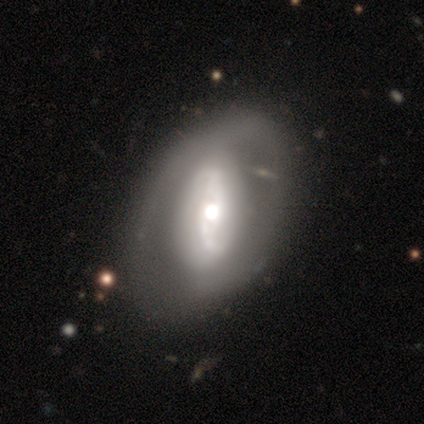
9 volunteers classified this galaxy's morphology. Smooth or featured?
  - featured or disk: 67% *
  - smooth: 33%
  - star or artifact: 0%
Edge-on disk?
  - no: 100% *
  - yes: 0%
Bar?
  - weak: 50% *
  - no: 33%
  - strong: 17%
Spiral arms?
  - yes: 83% *
  - no: 17%
Spiral winding?
  - loose: 60% *
  - tight: 20%
  - medium: 20%
Spiral arm count?
  - 2: 80% *
  - can't tell: 20%
  - 1: 0%
  - 3: 0%
  - 4: 0%
  - more than 4: 0%
Bulge size?
  - moderate: 83% *
  - large: 17%
  - dominant: 0%
  - small: 0%
  - none: 0%
Merging?
  - none: 44% *
  - minor disturbance: 33%
  - major disturbance: 22%
  - merger: 0%